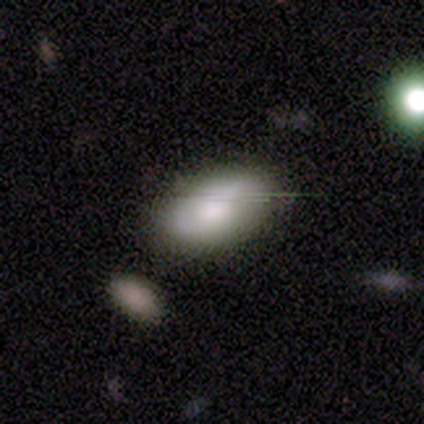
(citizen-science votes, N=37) A smooth galaxy with no disk features (73%) that is in between round and cigar-shaped (96%). Merging: none (67%).